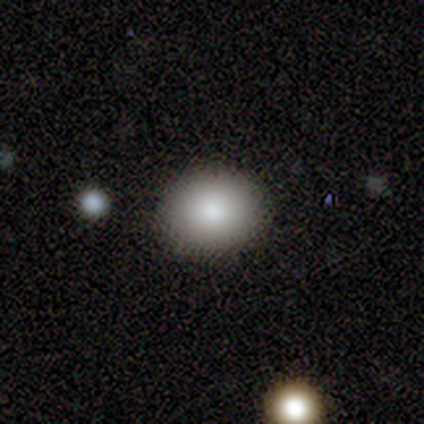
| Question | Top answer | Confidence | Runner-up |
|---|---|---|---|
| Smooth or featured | smooth | 87% | star or artifact (8%) |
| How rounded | round | 65% | in between (32%) |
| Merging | none | 92% | minor disturbance (8%) |